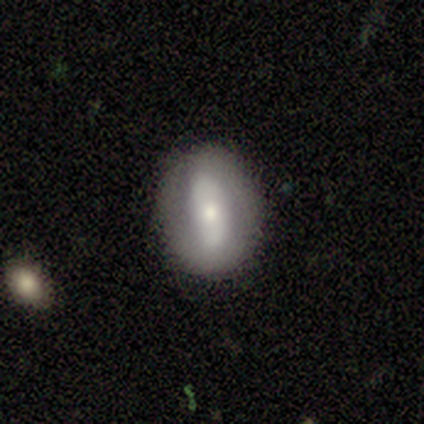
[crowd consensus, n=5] Volunteers were most divided on "smooth or featured": smooth: 60%, featured or disk: 40%, star or artifact: 0%. More confident: how rounded — round (100%); merging — none (100%).